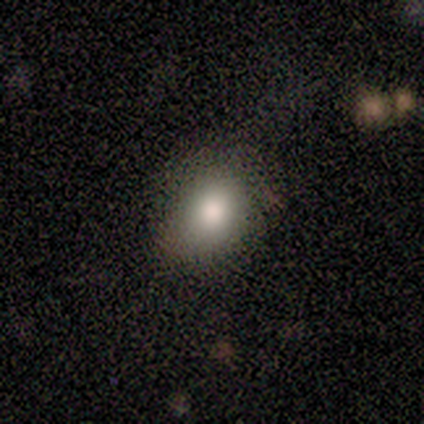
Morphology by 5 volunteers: Overall: smooth (60%; featured or disk 20%). How rounded: in between (67%; round 33%). Merging: none (50%, tied with minor disturbance).